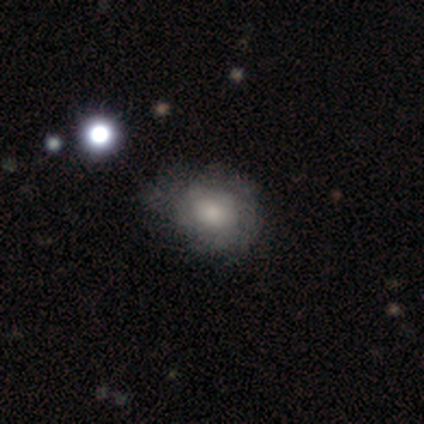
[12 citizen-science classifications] Smooth or featured?
  - smooth: 50% *
  - featured or disk: 33%
  - star or artifact: 17%
How rounded?
  - round: 50% * (tied)
  - in between: 50% * (tied)
  - cigar-shaped: 0%
Merging?
  - minor disturbance: 50% *
  - none: 40%
  - major disturbance: 10%
  - merger: 0%